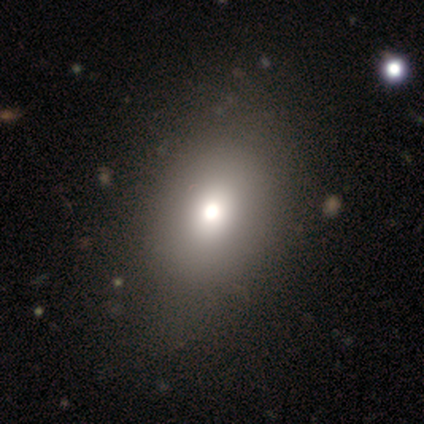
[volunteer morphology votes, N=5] Smooth or featured? 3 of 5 (60%) said smooth. How rounded? 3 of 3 (100%) said in between. Merging? 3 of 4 (75%) said none.